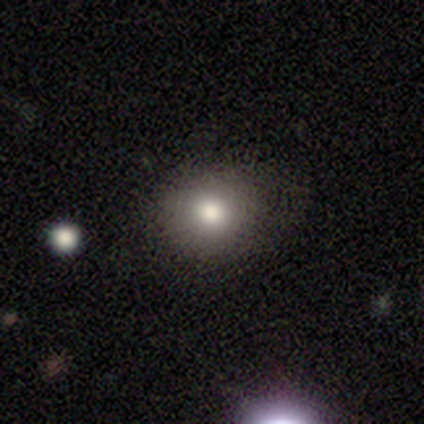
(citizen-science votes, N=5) Overall: smooth (60%; featured or disk 40%). How rounded: in between (67%; round 33%). Merging: none (60%; minor disturbance 20%).